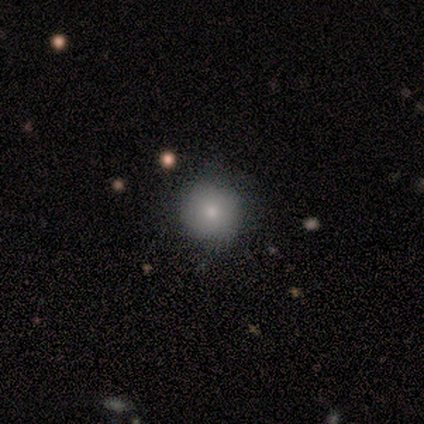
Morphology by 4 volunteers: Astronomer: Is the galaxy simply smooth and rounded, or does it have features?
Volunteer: smooth — 100%.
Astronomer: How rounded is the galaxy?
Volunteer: round — 100%.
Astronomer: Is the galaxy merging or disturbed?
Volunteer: none — 100%.